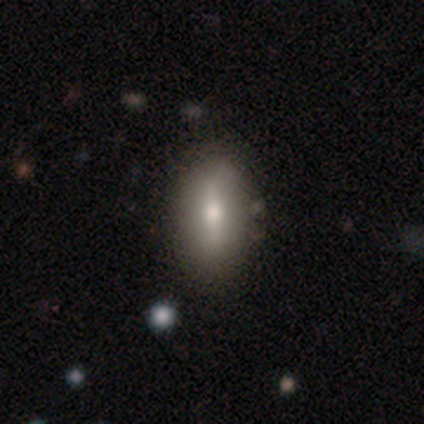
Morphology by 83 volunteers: smooth 60%, featured or disk 31%, star or artifact 8%. Down the decision tree: how rounded — in between (90%); merging — none (88%).